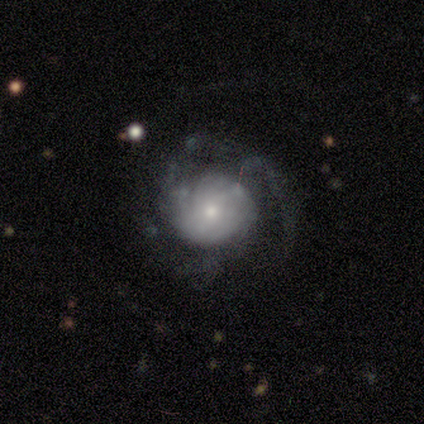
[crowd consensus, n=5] Morphology: type=featured or disk (80%); edge-on=no (100%); bar=no (50%); spiral arms=yes (100%); winding=medium (75%); arm count=3 (50%, tied with can't tell); bulge=moderate (75%); merging=none (40%, tied with minor disturbance).